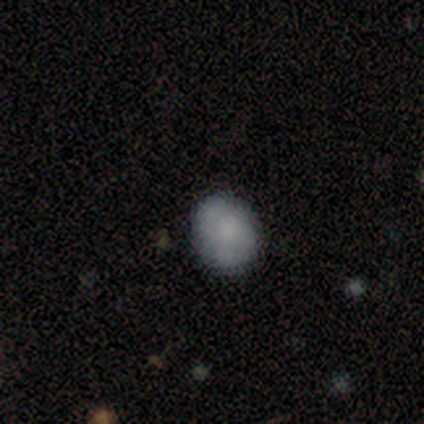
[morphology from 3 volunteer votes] This is likely a smooth galaxy (67%). How rounded: possibly round (50%, tied with in between). Merging: likely none (67%).